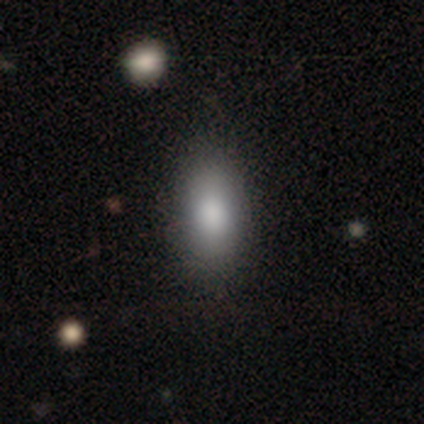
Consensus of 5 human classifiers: Smooth or featured? smooth (100%)
How rounded? in between (80%)
Merging? none (100%)